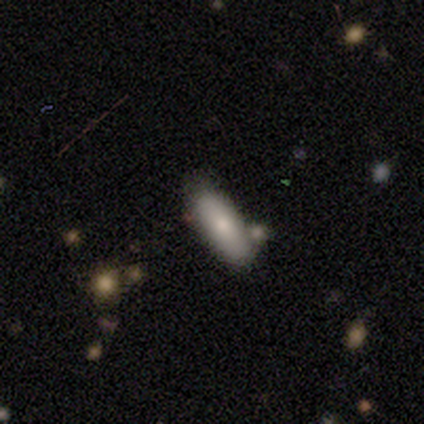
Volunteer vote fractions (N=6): A smooth galaxy with no disk features (83%) that is in between round and cigar-shaped (80%). Merging: none (83%).